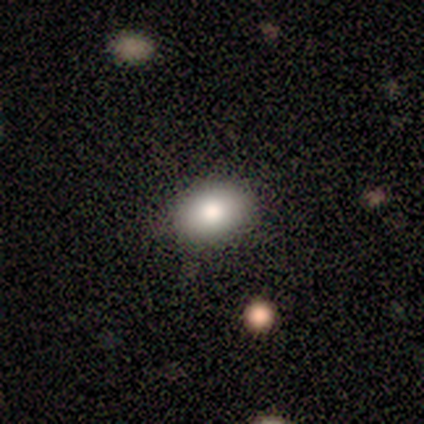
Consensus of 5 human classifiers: Smooth or featured? smooth (80%)
How rounded? in between (100%)
Merging? none (100%)